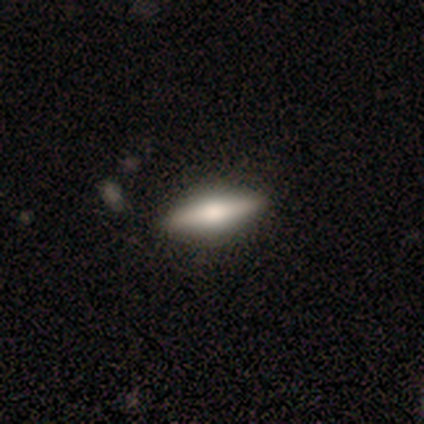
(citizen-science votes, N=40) Volunteers were most divided on "smooth or featured": featured or disk: 68%, smooth: 32%, star or artifact: 0%. More confident: merging — none (85%); edge-on disk — yes (81%); edge-on bulge — rounded (77%).